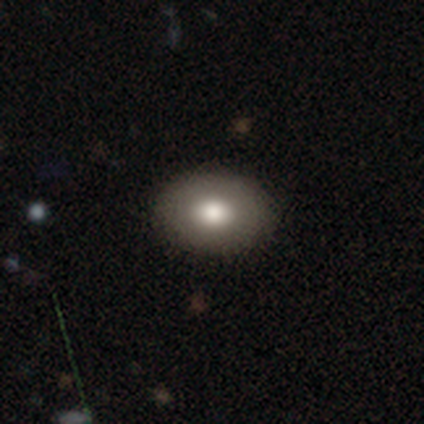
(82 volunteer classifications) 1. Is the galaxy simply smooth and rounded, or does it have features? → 85% smooth, 12% featured or disk, 2% star or artifact.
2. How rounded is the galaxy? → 76% in between, 24% round, 0% cigar-shaped.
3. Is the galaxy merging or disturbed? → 50% none, 1% minor disturbance, 1% merger, 0% major disturbance.